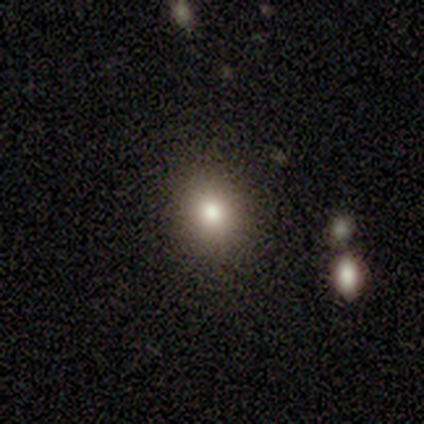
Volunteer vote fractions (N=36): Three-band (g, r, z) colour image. It shows a smooth galaxy with no disk features (78%) that is round (68%). Merging: none (97%).